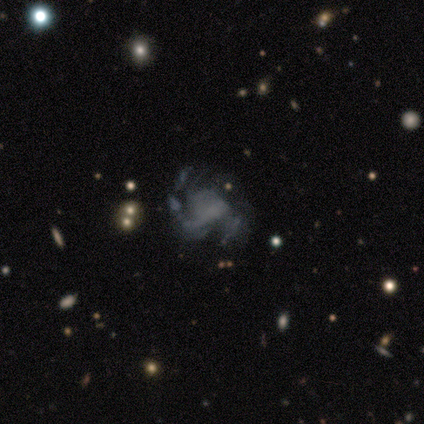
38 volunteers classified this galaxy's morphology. Smooth or featured? featured or disk (82%)
Edge-on disk? no (100%)
Bar? no (81%)
Spiral arms? yes (90%)
Spiral winding? medium (54%)
Spiral arm count? 2 (36%)
Bulge size? none (84%)
Merging? none (58%)